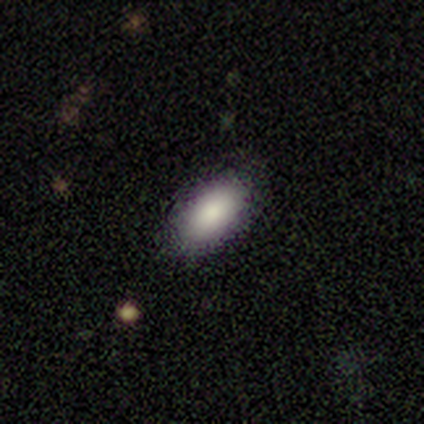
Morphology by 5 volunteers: type=smooth (80%); roundness=in between (100%); merging=none (100%).